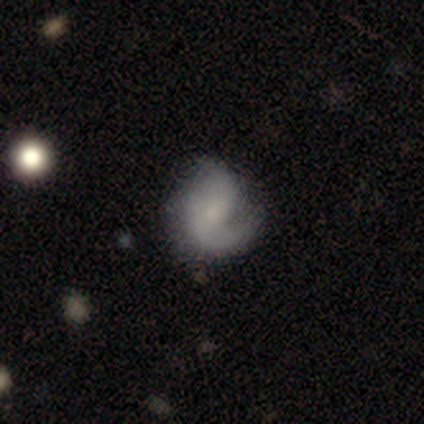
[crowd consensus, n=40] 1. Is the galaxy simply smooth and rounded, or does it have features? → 72% featured or disk, 18% smooth, 10% star or artifact.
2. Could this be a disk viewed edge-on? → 100% no, 0% yes.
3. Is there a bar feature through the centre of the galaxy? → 69% no, 28% weak, 3% strong.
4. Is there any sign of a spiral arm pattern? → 86% yes, 14% no.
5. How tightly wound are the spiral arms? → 44% medium, 40% loose, 16% tight.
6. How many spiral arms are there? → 48% 2, 44% 1, 8% can't tell, 0% 3, 0% 4, 0% more than 4.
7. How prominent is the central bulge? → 52% small, 24% none, 21% moderate, 3% large, 0% dominant.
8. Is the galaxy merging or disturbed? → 56% none, 22% minor disturbance, 17% major disturbance, 6% merger.